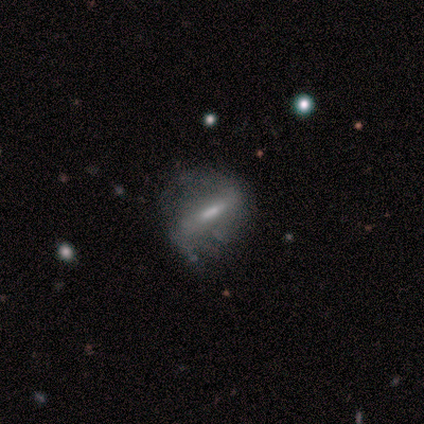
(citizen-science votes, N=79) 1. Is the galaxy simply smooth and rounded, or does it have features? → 66% featured or disk, 28% smooth, 6% star or artifact.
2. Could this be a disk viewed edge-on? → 75% no, 25% yes.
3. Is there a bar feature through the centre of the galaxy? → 74% strong, 15% weak, 10% no.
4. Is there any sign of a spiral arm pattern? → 62% yes, 38% no.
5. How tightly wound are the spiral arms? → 38% tight (tied), 38% loose (tied), 25% medium.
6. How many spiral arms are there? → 67% 2, 21% can't tell, 12% 1, 0% 3, 0% 4, 0% more than 4.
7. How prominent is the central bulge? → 33% moderate, 28% none, 26% small, 13% large, 0% dominant.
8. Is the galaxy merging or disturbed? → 50% none, 28% minor disturbance, 20% major disturbance, 1% merger.